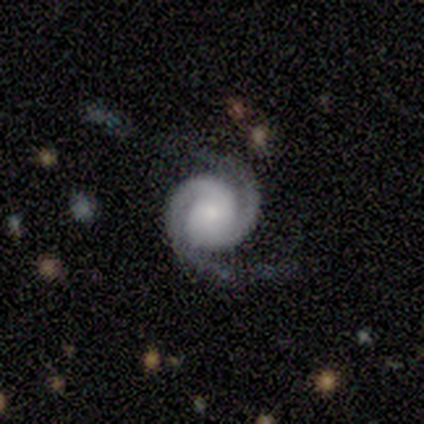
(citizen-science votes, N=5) smooth_or_featured: featured or disk (p=1.00)
disk_edge_on: no (p=1.00)
bar: no (p=0.60) [alt: strong p=0.40]
has_spiral_arms: yes (p=1.00)
spiral_winding: tight (p=0.80) [alt: medium p=0.20]
spiral_arm_count: 2 (p=1.00)
bulge_size: moderate (p=0.40) [tied with: small p=0.40]
merging: none (p=0.60) [alt: minor disturbance p=0.40]